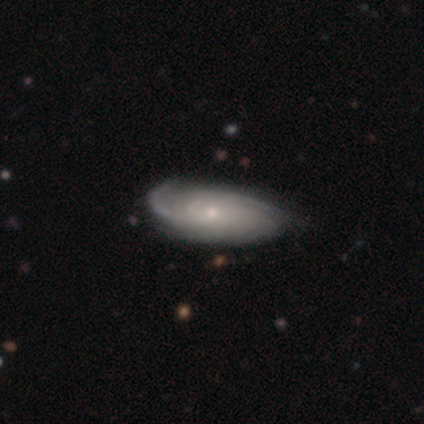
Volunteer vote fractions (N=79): A featured or disk galaxy (82%) with no bar (90%), tight (53%) spiral arms (95%) and a small central bulge (85%). Merging: none (32%).